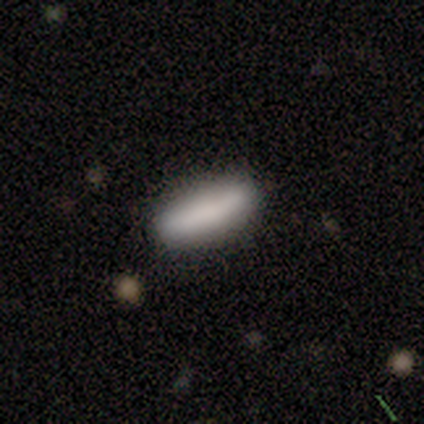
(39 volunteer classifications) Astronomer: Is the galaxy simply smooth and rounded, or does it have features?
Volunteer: smooth — 74%.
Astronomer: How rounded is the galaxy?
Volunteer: cigar-shaped — 76%.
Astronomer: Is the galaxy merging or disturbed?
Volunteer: none — 86%.